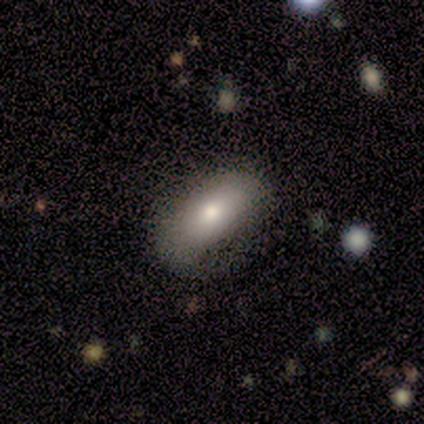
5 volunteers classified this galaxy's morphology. This is clearly a smooth galaxy (80%). How rounded: clearly in between (100%). Merging: marginally none (40%, tied with minor disturbance).